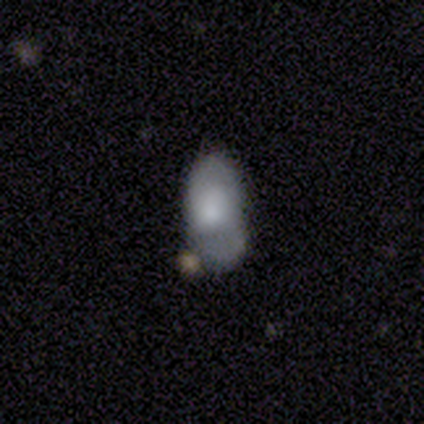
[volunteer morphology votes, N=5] Smooth or featured? 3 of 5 (60%) said smooth. How rounded? 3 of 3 (100%) said in between. Merging? 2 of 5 (40%) said none.